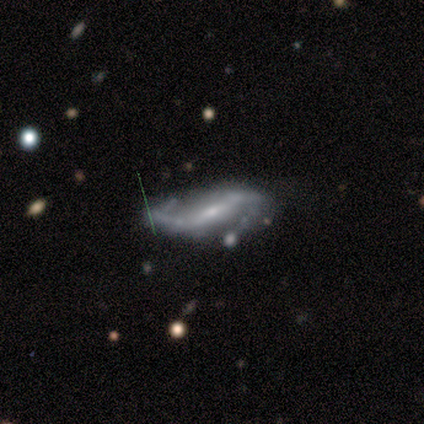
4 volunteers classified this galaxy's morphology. Volunteers were most divided on "bar": no: 67%, weak: 33%, strong: 0%. More confident: edge-on disk — no (100%); spiral arms — yes (100%); spiral winding — loose (100%); spiral arm count — 2 (100%); bulge size — small (100%); smooth or featured — featured or disk (75%); merging — none (67%).